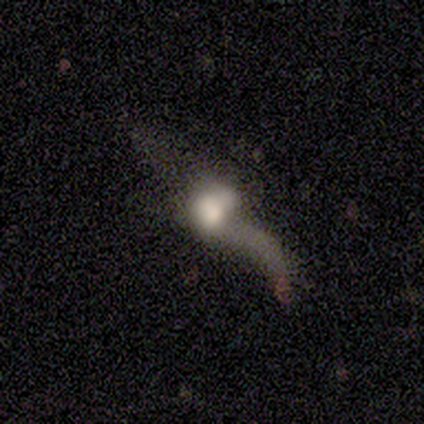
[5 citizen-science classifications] This is clearly a featured or disk galaxy (80%). It is likely not viewed edge-on (75%). Bar: clearly no (100%). Spiral arm pattern: likely no (67%). Central bulge: likely moderate (67%). Merging: marginally minor disturbance (40%, tied with major disturbance).